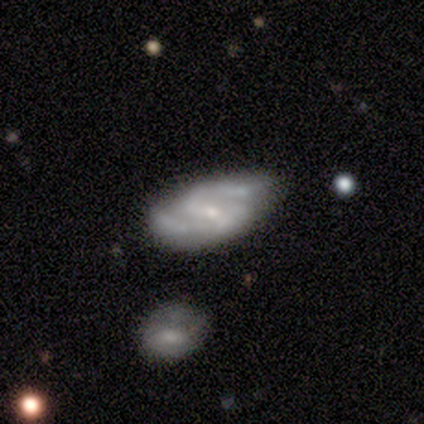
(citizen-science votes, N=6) smooth-or-featured: featured or disk: 67% | smooth: 33% | star or artifact: 0%
  disk-edge-on: no: 100% | yes: 0%
    bar: weak: 75% | no: 25% | strong: 0%
    has-spiral-arms: yes: 100% | no: 0%
      spiral-winding: medium: 75% | loose: 25% | tight: 0%
      spiral-arm-count: 2: 100% | 1: 0% | 3: 0% | 4: 0% | more than 4: 0% | can't tell: 0%
    bulge-size: small: 100% | dominant: 0% | large: 0% | moderate: 0% | none: 0%
  merging: none: 83% | minor disturbance: 17% | major disturbance: 0% | merger: 0%